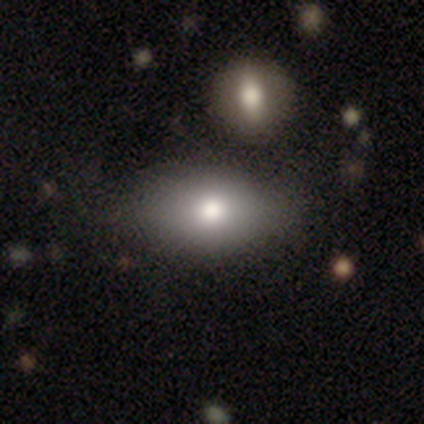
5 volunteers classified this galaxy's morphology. This appears to be a smooth galaxy with no disk features (100%) that is in between round and cigar-shaped (100%). Merging: none (80%).